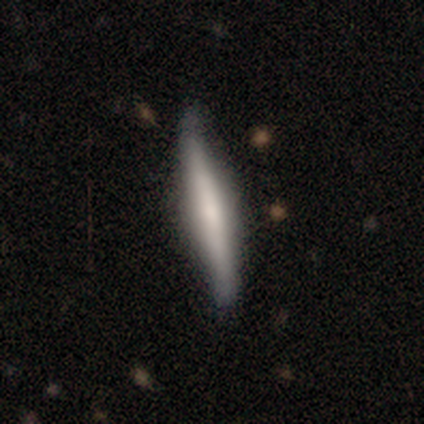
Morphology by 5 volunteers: type=featured or disk (80%); edge-on=yes (100%); edge-on bulge=boxy (50%, tied with rounded); merging=none (60%).